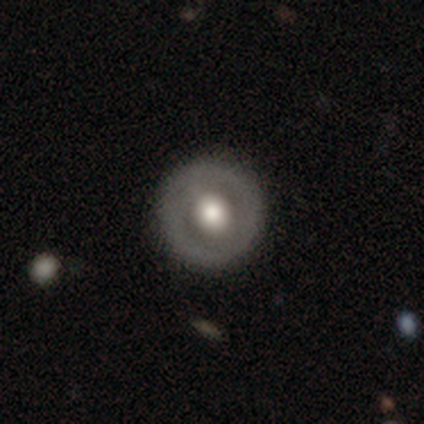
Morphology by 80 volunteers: Smooth or featured? featured or disk (60%)
Edge-on disk? no (100%)
Bar? no (67%)
Spiral arms? no (77%)
Bulge size? moderate (52%)
Merging? none (48%)